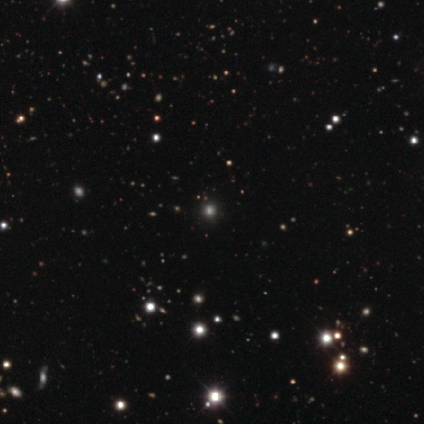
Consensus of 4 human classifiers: A smooth galaxy with no disk features (50%) that is round (100%).

Vote fractions:
- Smooth or featured? smooth: 50% / featured or disk: 25% / star or artifact: 25%
- How rounded? round: 100% / in between: 0% / cigar-shaped: 0%
- Merging? none: 67% / minor disturbance: 33% / major disturbance: 0% / merger: 0%